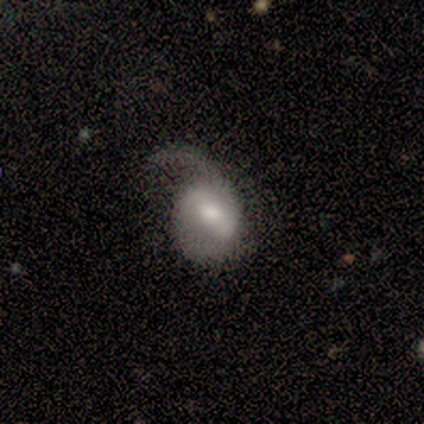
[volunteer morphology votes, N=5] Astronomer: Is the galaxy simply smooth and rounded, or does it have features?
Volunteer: featured or disk — 40%, tied with star or artifact at 40%.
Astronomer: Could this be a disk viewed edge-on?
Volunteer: no — 100%.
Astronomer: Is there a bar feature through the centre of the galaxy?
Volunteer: strong — 100%.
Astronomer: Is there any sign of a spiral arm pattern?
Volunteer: yes — 100%.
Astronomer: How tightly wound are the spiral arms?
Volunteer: medium — 50%, tied with loose at 50%.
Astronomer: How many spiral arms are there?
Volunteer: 1 — 50%, tied with 2 at 50%.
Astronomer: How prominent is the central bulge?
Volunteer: large — 50%, tied with moderate at 50%.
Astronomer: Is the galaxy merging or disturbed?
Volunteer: major disturbance — 67%.